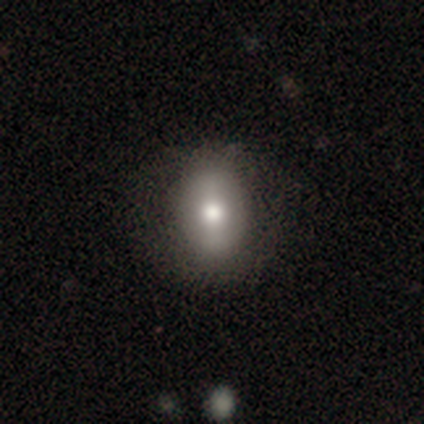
Overall: smooth (60%; featured or disk 32%). How rounded: in between (79%). Merging: none (70%).